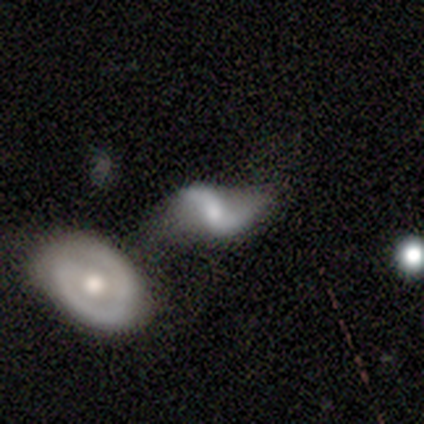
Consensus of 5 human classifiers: Q: Smooth or featured?
A: featured or disk (80%); runner-up: smooth (20%)
Q: Edge-on disk?
A: no (100%)
Q: Bar?
A: weak (75%); runner-up: no (25%)
Q: Spiral arms?
A: yes (100%)
Q: Spiral winding?
A: loose (100%)
Q: Spiral arm count?
A: 2 (100%)
Q: Bulge size?
A: small (50%); runner-up: moderate (25%)
Q: Merging?
A: minor disturbance (40%); tied with: merger (40%)